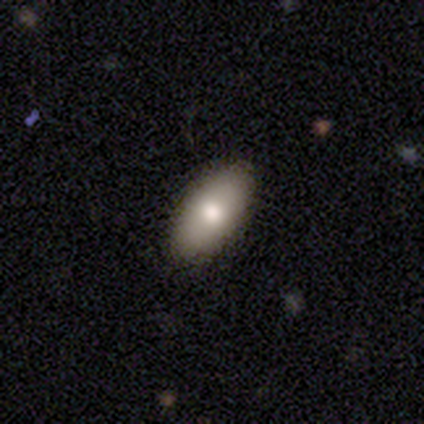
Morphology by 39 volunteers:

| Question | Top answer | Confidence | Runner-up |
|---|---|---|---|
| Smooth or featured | smooth | 77% | star or artifact (13%) |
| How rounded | in between | 97% | cigar-shaped (3%) |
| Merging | none | 94% | minor disturbance (6%) |